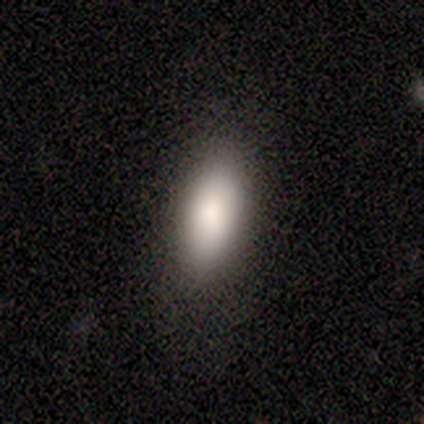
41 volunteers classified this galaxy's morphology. Smooth or featured? 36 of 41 (88%) said smooth. How rounded? 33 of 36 (92%) said in between. Merging? 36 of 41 (88%) said none.